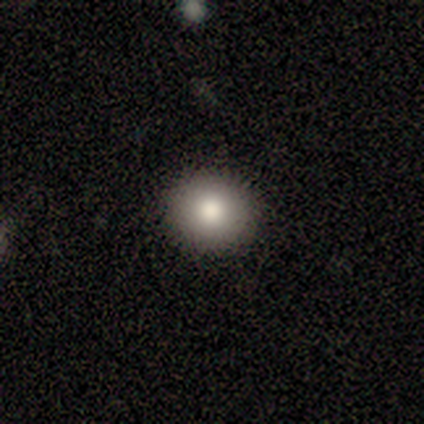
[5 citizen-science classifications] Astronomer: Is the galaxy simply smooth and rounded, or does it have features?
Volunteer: smooth — 100%.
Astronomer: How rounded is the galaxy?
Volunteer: round — 100%.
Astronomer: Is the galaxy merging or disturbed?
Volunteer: none — 100%.